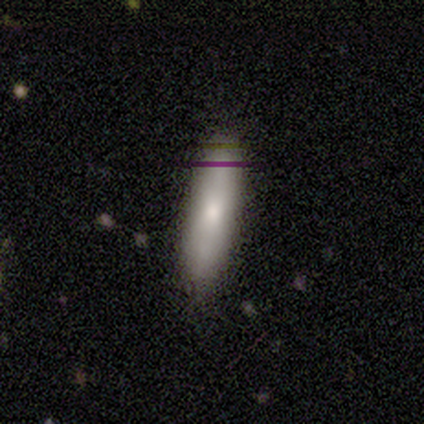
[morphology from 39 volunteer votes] smooth 72%, featured or disk 23%, star or artifact 5%. Down the decision tree: how rounded — cigar-shaped (79%); merging — none (76%).